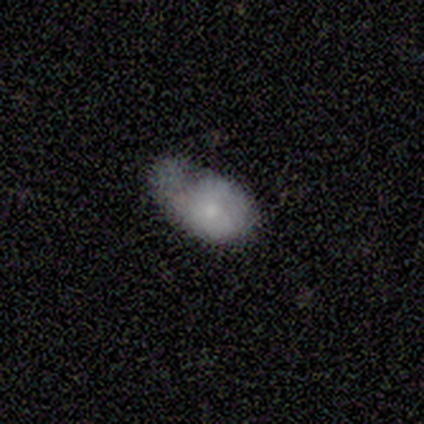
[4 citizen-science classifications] This is likely a smooth galaxy (75%). How rounded: clearly in between (100%). Merging: possibly minor disturbance (50%).